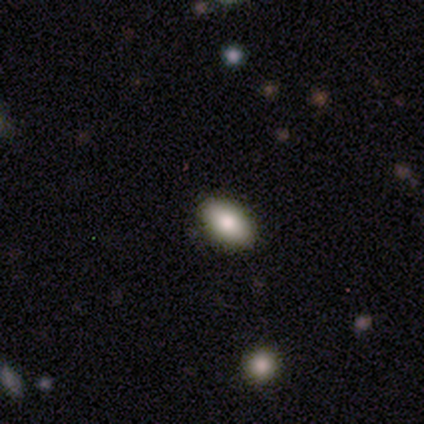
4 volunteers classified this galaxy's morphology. Smooth or featured: smooth — 75% (star or artifact — 25%)
How rounded: in between — 100%
Merging: none — 100%